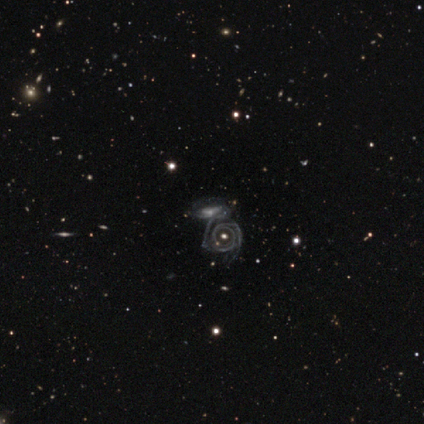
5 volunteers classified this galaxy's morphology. Volunteers were most divided on "merging" (2-way tie): none: 40%, merger: 40%, minor disturbance: 20%, major disturbance: 0%. More confident: smooth or featured — featured or disk (100%); edge-on disk — no (100%); bar — no (100%); spiral arm count — 2 (100%); spiral arms — yes (80%); bulge size — small (80%); spiral winding — tight (75%).